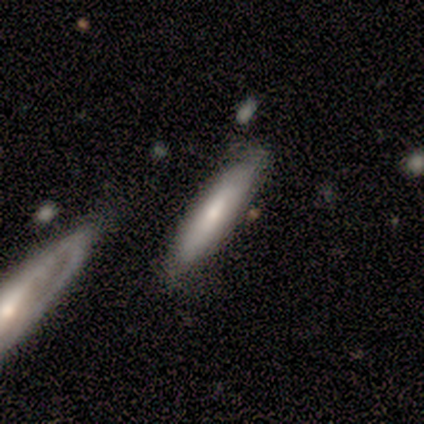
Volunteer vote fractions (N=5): Smooth or featured? 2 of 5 (40%, tied with featured or disk) said smooth. How rounded? 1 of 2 (50%, tied with cigar-shaped) said in between. Merging? 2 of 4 (50%, tied with minor disturbance) said none.